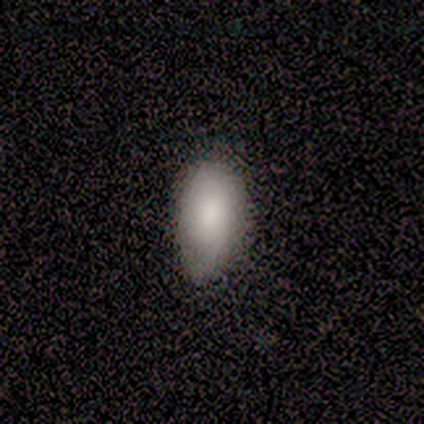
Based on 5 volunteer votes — smooth_or_featured: smooth (p=1.00)
how_rounded: in between (p=0.80) [alt: round p=0.20]
merging: minor disturbance (p=0.60) [alt: none p=0.40]